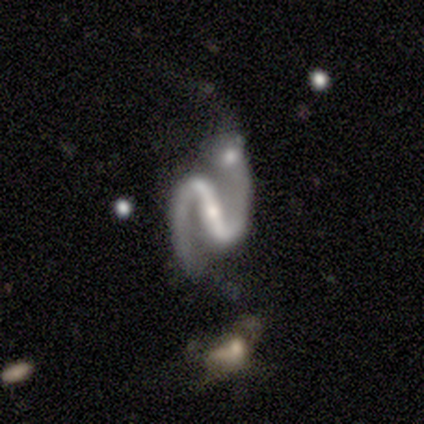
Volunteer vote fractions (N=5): Volunteers were most divided on "bulge size" (2-way tie): moderate: 40%, small: 40%, none: 20%, dominant: 0%, large: 0%. More confident: smooth or featured — featured or disk (100%); edge-on disk — no (100%); spiral arms — yes (100%); spiral arm count — 2 (100%); bar — strong (80%); merging — none (60%); spiral winding — medium (60%).